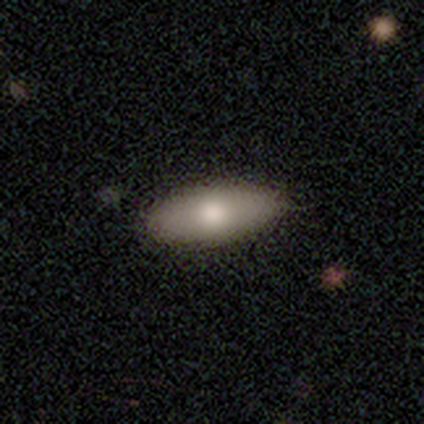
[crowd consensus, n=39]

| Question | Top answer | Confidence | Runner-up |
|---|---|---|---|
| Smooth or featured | smooth | 74% | featured or disk (26%) |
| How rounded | in between | 83% | cigar-shaped (17%) |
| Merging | none | 67% | minor disturbance (8%) |